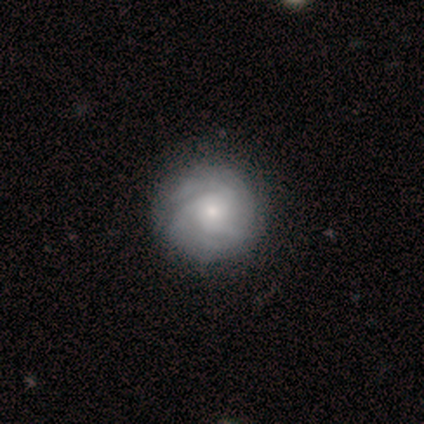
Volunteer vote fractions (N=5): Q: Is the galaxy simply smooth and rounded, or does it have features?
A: smooth — 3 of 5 (60%).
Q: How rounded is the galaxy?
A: round — 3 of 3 (100%).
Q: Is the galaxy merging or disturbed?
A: none — 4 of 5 (80%).